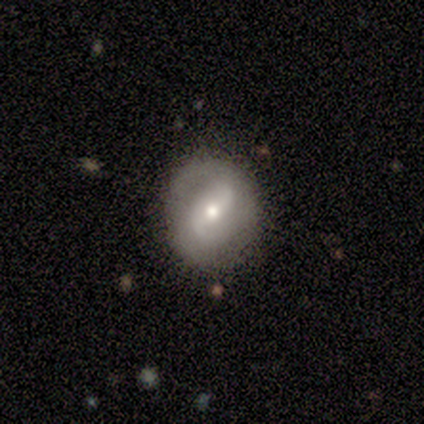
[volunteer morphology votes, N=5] A featured or disk galaxy (80%) with a strong bar (50%, tied with weak), medium (67%) spiral arms (75%) and a moderate central bulge (75%).

Vote fractions:
- Smooth or featured? featured or disk: 80% / star or artifact: 20% / smooth: 0%
- Edge-on disk? no: 100% / yes: 0%
- Bar? strong: 50% (tied) / weak: 50% (tied) / no: 0%
- Spiral arms? yes: 75% / no: 25%
- Spiral winding? medium: 67% / loose: 33% / tight: 0%
- Spiral arm count? can't tell: 67% / 2: 33% / 1: 0% / 3: 0% / 4: 0% / more than 4: 0%
- Bulge size? moderate: 75% / small: 25% / dominant: 0% / large: 0% / none: 0%
- Merging? none: 75% / minor disturbance: 25% / major disturbance: 0% / merger: 0%